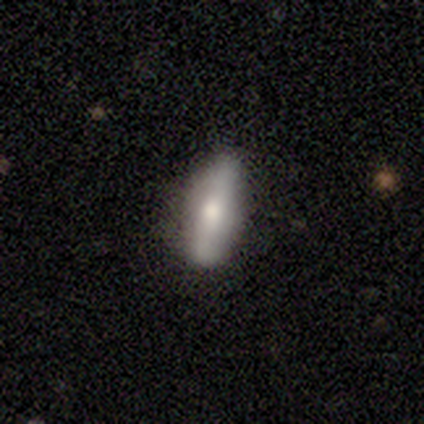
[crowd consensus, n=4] Smooth or featured: smooth — 75% (featured or disk — 25%)
How rounded: in between — 67% (cigar-shaped — 33%)
Merging: none — 75% (major disturbance — 25%)